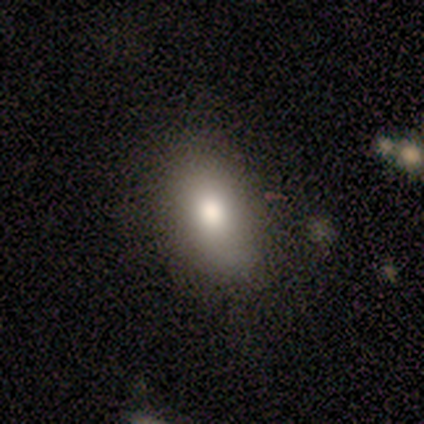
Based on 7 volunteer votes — Morphology: type=smooth (43%, tied with featured or disk); roundness=in between (100%); merging=none (100%).